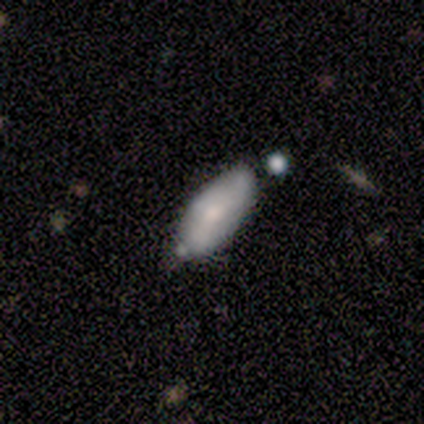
A smooth galaxy with no disk features (60%) that is in between round and cigar-shaped (100%). Merging: none (50%, tied with minor disturbance).